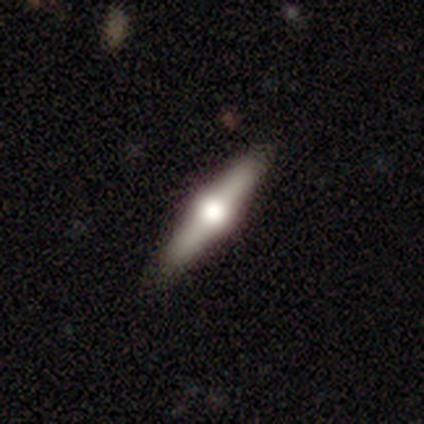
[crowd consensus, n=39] A featured or disk galaxy (85%) viewed edge-on (97%) with a rounded central bulge (100%).

Vote fractions:
- Smooth or featured? featured or disk: 85% / smooth: 13% / star or artifact: 3%
- Edge-on disk? yes: 97% / no: 3%
- Edge-on bulge? rounded: 100% / boxy: 0% / none: 0%
- Merging? none: 63% / minor disturbance: 5% / major disturbance: 3% / merger: 0%